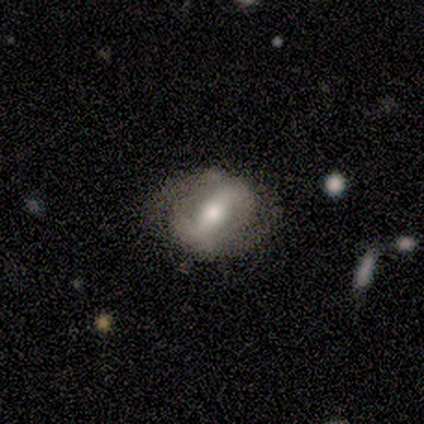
Q: Smooth or featured?
A: featured or disk (80%); runner-up: smooth (20%)
Q: Edge-on disk?
A: no (100%)
Q: Bar?
A: strong (75%); runner-up: no (25%)
Q: Spiral arms?
A: yes (75%); runner-up: no (25%)
Q: Spiral winding?
A: loose (100%)
Q: Spiral arm count?
A: 2 (100%)
Q: Bulge size?
A: moderate (50%); tied with: small (50%)
Q: Merging?
A: none (80%); runner-up: minor disturbance (20%)